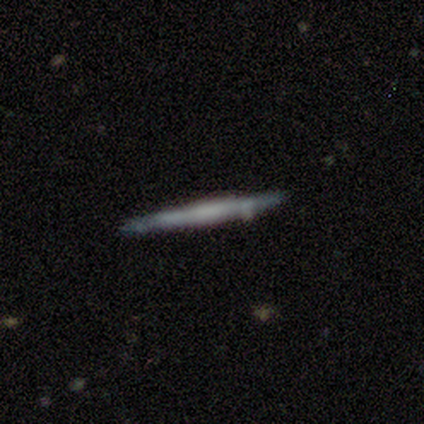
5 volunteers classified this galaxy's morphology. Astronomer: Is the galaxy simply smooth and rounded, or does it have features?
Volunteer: featured or disk — 80%.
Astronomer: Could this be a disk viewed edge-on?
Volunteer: yes — 100%.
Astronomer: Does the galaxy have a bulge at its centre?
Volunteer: none — 100%.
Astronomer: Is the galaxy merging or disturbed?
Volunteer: none — 100%.